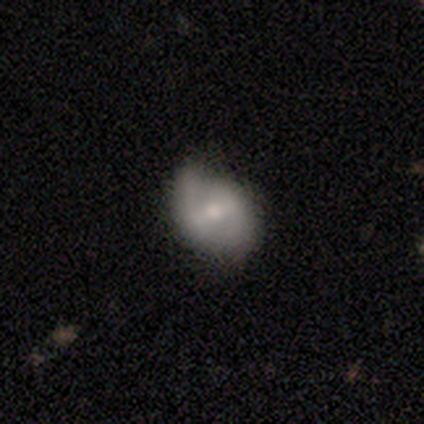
smooth 60%, featured or disk 20%, star or artifact 20%. Down the decision tree: how rounded — in between (100%); merging — minor disturbance (100%).